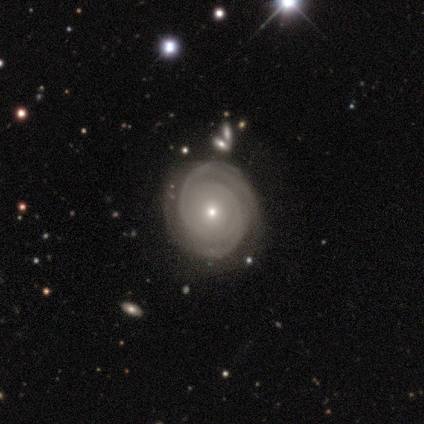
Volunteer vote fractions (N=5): smooth-or-featured: featured or disk: 100% | smooth: 0% | star or artifact: 0%
  disk-edge-on: no: 100% | yes: 0%
    bar: no: 100% | strong: 0% | weak: 0%
    has-spiral-arms: yes: 80% | no: 20%
      spiral-winding: tight: 50% (tied) | medium: 50% (tied) | loose: 0%
      spiral-arm-count: can't tell: 50% | 2: 25% | 3: 25% | 1: 0% | 4: 0% | more than 4: 0%
    bulge-size: small: 80% | moderate: 20% | dominant: 0% | large: 0% | none: 0%
  merging: none: 100% | minor disturbance: 0% | major disturbance: 0% | merger: 0%